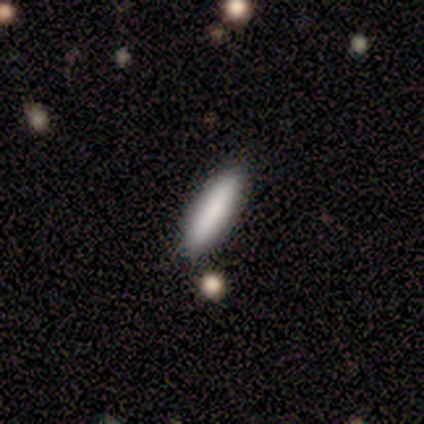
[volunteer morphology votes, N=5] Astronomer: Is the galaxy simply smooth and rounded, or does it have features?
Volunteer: smooth — 100%.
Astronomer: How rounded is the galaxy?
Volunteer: cigar-shaped — 100%.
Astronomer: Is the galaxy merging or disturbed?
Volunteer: none — 100%.